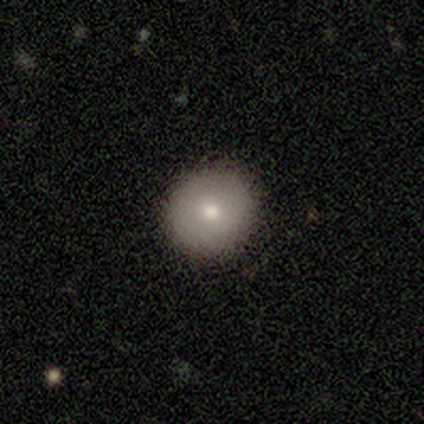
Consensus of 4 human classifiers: This is likely a smooth galaxy (75%). How rounded: clearly round (100%). Merging: likely none (75%).